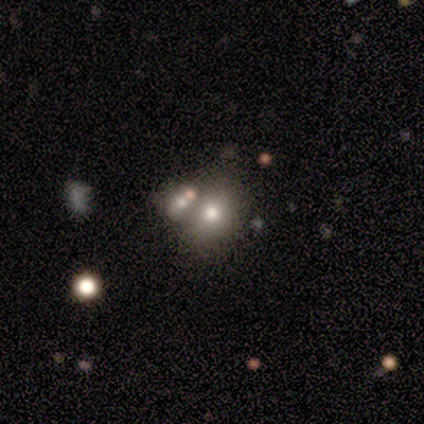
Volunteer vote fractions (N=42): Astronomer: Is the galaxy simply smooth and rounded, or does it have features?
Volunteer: smooth — 67%.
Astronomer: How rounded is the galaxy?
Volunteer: round — 61% (runner-up: in between, 39%).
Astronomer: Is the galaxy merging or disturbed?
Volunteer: none — 57%.